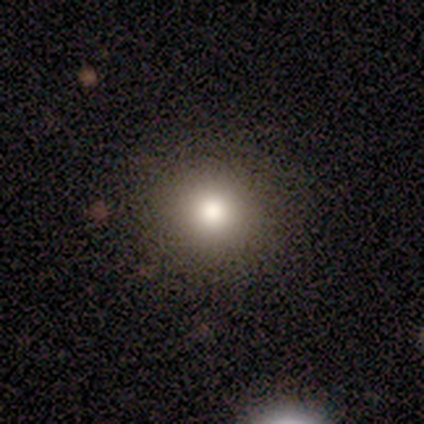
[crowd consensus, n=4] Volunteers were most divided on "smooth or featured": smooth: 75%, star or artifact: 25%, featured or disk: 0%. More confident: how rounded — round (100%); merging — none (100%).